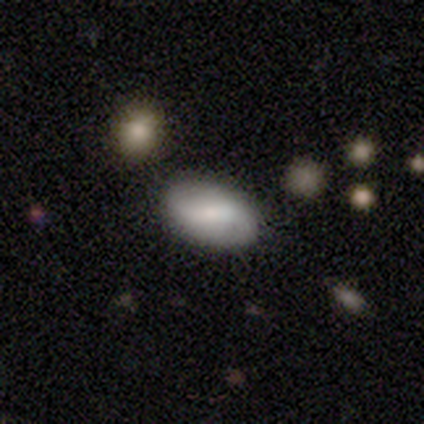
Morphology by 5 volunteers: This appears to be a smooth galaxy with no disk features (60%) that is in between round and cigar-shaped (100%). Merging: none (80%).